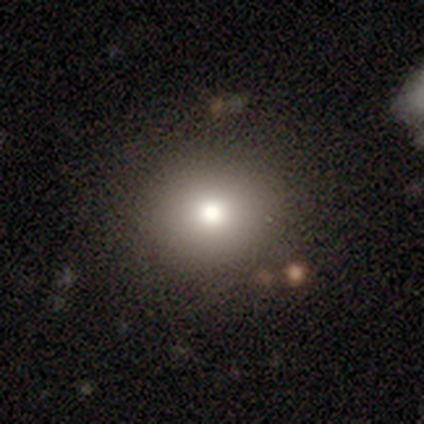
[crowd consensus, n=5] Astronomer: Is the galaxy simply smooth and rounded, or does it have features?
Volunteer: smooth — 100%.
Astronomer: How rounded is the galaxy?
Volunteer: round — 80%.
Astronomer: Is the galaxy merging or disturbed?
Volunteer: none — 60% (runner-up: minor disturbance, 40%).